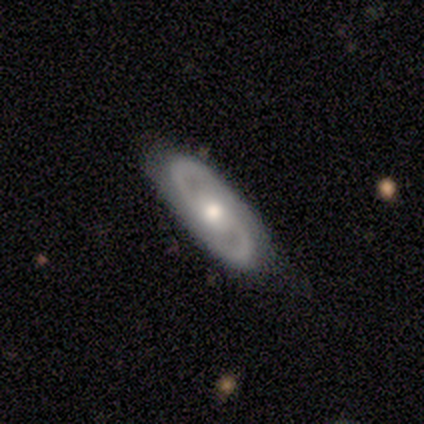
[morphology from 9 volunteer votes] This is clearly a featured or disk galaxy (100%). It is likely not viewed edge-on (78%). Bar: clearly no (86%). Spiral arm pattern: clearly yes (100%). Spiral arm count: clearly 2 (100%). Spiral winding: possibly medium (57%). Central bulge: clearly moderate (100%). Merging: likely none (67%).